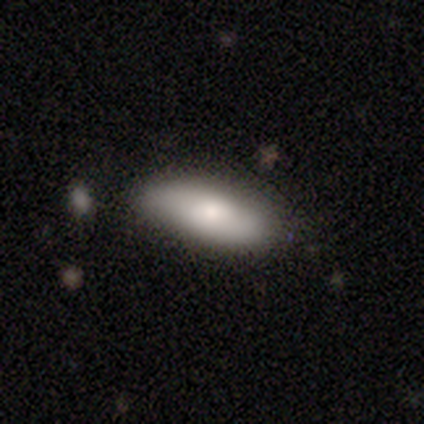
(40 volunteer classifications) This appears to be a smooth galaxy with no disk features (88%) that is in between round and cigar-shaped (74%). Merging: none (74%).